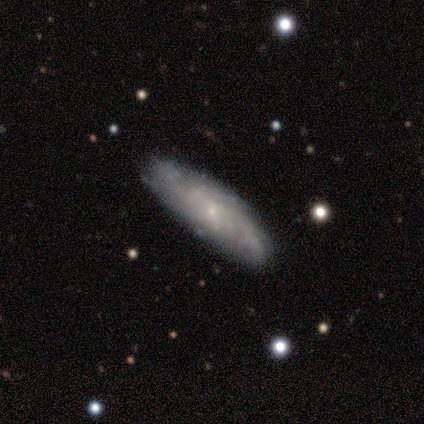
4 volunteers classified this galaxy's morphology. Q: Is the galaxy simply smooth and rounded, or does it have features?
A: featured or disk — 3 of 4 (75%).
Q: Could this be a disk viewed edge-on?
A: no — 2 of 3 (67%).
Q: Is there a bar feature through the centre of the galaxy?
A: weak — 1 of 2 (50%, tied with no).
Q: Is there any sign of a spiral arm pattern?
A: yes — 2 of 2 (100%).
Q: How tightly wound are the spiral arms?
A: medium — 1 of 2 (50%, tied with loose).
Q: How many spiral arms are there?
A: can't tell — 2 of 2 (100%).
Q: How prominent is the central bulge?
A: small — 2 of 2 (100%).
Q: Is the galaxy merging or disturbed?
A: none — 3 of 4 (75%).